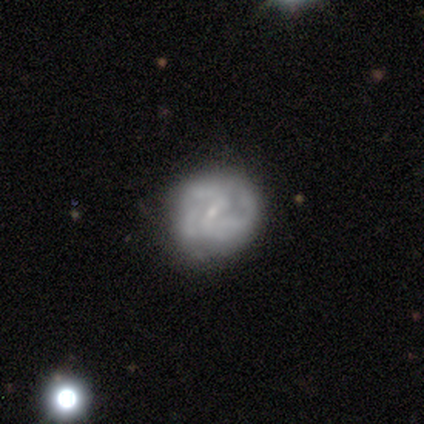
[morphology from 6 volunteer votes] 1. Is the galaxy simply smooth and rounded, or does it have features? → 67% smooth, 33% featured or disk, 0% star or artifact.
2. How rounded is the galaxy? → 75% round, 25% in between, 0% cigar-shaped.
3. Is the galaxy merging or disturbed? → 67% none, 33% minor disturbance, 0% major disturbance, 0% merger.